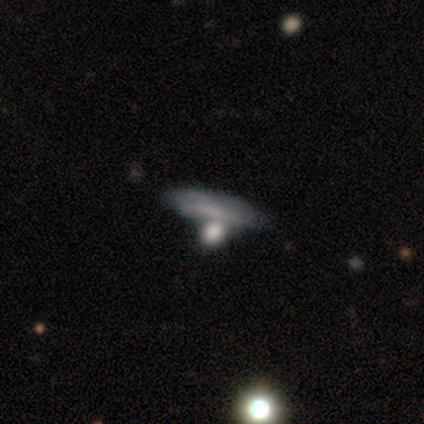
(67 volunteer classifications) Morphology: type=smooth (48%); roundness=in between (50%); merging=none (47%).